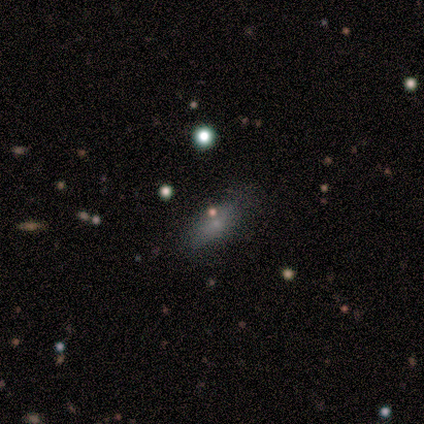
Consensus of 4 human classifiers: A smooth galaxy with no disk features (100%) that is in between round and cigar-shaped (50%, tied with cigar-shaped).

Vote fractions:
- Smooth or featured? smooth: 100% / featured or disk: 0% / star or artifact: 0%
- How rounded? in between: 50% (tied) / cigar-shaped: 50% (tied) / round: 0%
- Merging? none: 100% / minor disturbance: 0% / major disturbance: 0% / merger: 0%